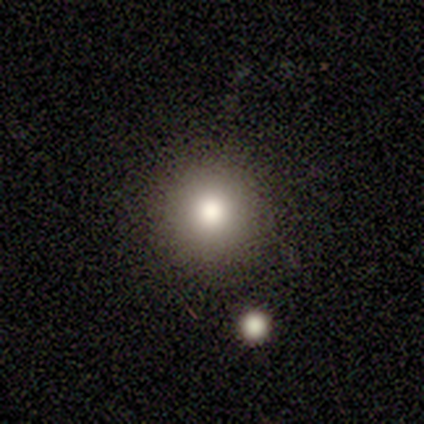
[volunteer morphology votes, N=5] Smooth or featured? smooth (100%)
How rounded? round (100%)
Merging? none (100%)